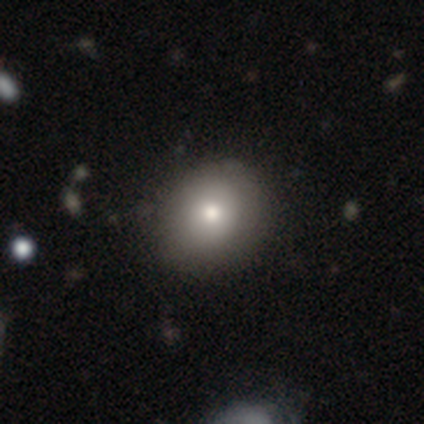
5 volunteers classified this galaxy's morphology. A smooth galaxy with no disk features (80%) that is round (75%). Merging: none (100%).